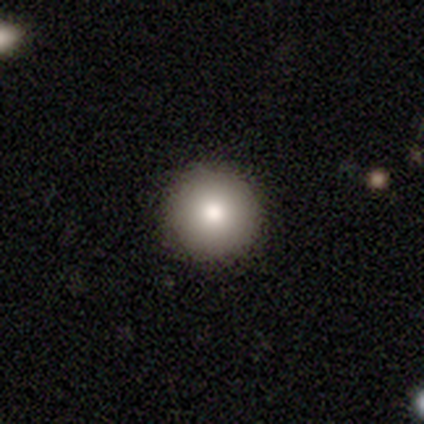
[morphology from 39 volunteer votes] type=smooth (85%); roundness=round (97%); merging=none (95%).